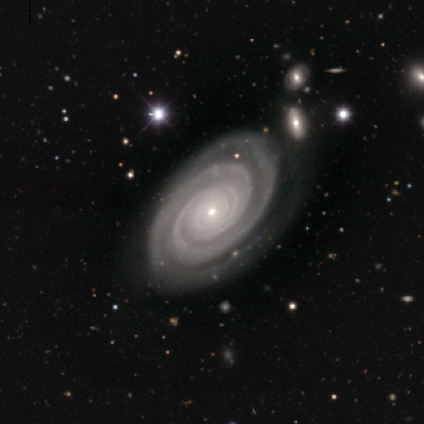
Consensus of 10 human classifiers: Morphology: type=featured or disk (90%); edge-on=no (89%); bar=no (88%); spiral arms=yes (100%); winding=tight (88%); arm count=2 (38%); bulge=small (88%); merging=none (78%).